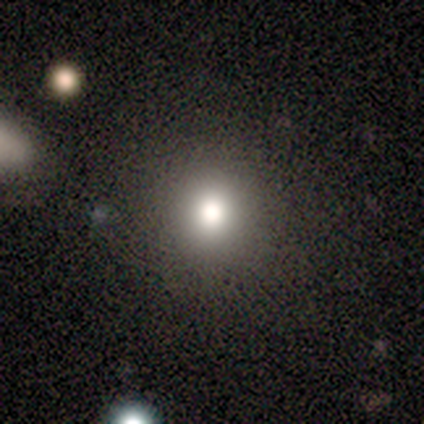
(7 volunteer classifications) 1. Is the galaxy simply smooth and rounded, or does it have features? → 43% smooth (tied), 43% star or artifact (tied), 14% featured or disk.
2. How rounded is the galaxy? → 100% round, 0% in between, 0% cigar-shaped.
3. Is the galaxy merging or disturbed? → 100% none, 0% minor disturbance, 0% major disturbance, 0% merger.